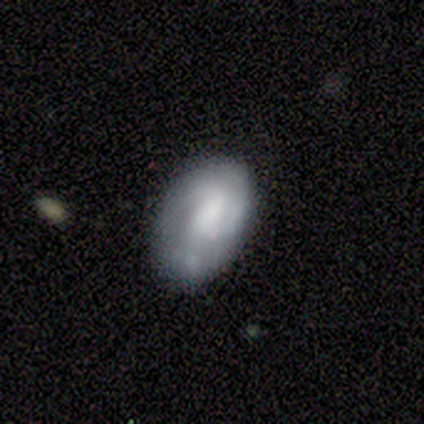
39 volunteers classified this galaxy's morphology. Volunteers were most divided on "merging": none: 53%, minor disturbance: 36%, merger: 8%, major disturbance: 3%. More confident: how rounded — in between (87%); smooth or featured — smooth (59%).